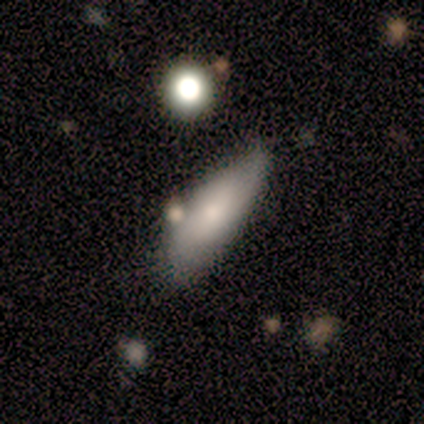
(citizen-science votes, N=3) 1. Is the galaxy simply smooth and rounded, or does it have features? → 67% smooth, 33% featured or disk, 0% star or artifact.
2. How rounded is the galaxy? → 50% in between (tied), 50% cigar-shaped (tied), 0% round.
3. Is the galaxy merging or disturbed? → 67% none, 33% merger, 0% minor disturbance, 0% major disturbance.